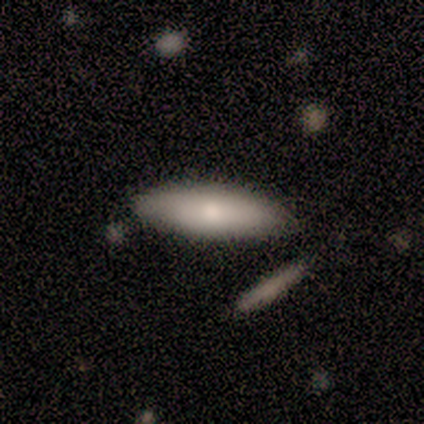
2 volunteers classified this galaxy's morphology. This is clearly a smooth galaxy (100%). How rounded: possibly in between (50%, tied with cigar-shaped). Merging: clearly none (100%).